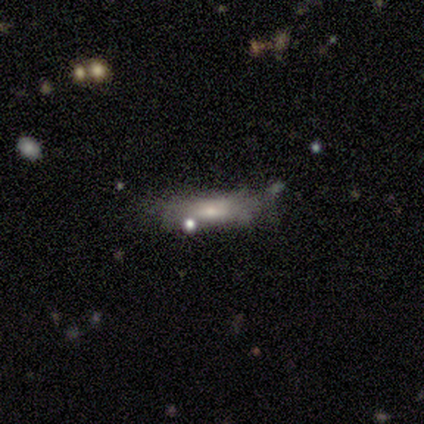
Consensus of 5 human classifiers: This appears to be a smooth galaxy with no disk features (60%) that is cigar-shaped (67%). Merging: none (50%, tied with minor disturbance).